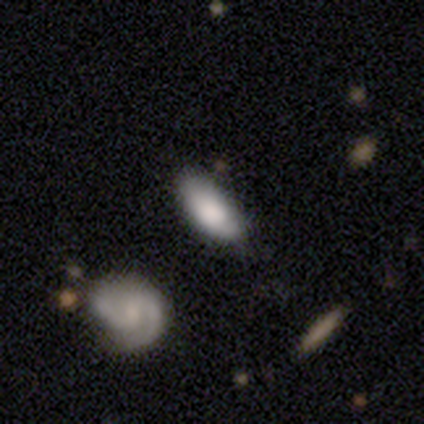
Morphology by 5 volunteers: A featured or disk galaxy (60%) with no bar (67%), no spiral arms (67%) and a dominant central bulge (33%, tied with moderate and none). Merging: none (100%).